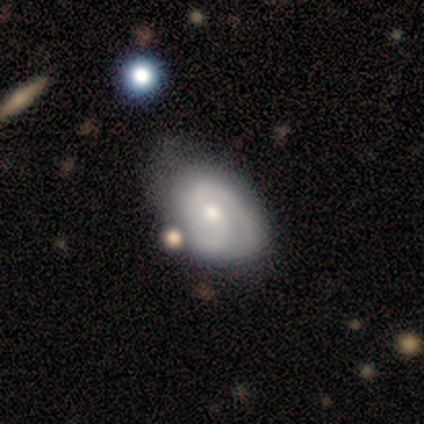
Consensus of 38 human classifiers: Smooth or featured? 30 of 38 (79%) said featured or disk. Edge-on disk? 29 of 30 (97%) said no. Bar? 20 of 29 (69%) said no. Spiral arms? 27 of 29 (93%) said yes. Spiral winding? 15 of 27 (56%) said tight. Spiral arm count? 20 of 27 (74%) said 2. Bulge size? 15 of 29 (52%) said small. Merging? 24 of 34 (71%) said none.